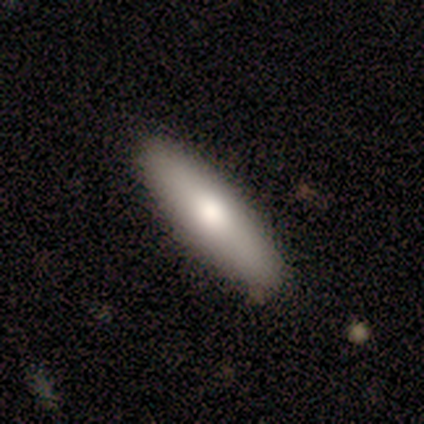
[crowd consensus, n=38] smooth_or_featured: smooth (p=0.66) [alt: featured or disk p=0.18]
how_rounded: cigar-shaped (p=0.80) [alt: in between p=0.16]
merging: none (p=0.91) [alt: minor disturbance p=0.09]